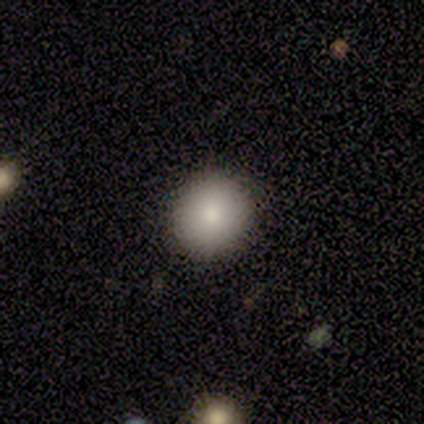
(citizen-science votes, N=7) smooth 71%, featured or disk 14%, star or artifact 14%. Down the decision tree: how rounded — round (80%); merging — none (100%).